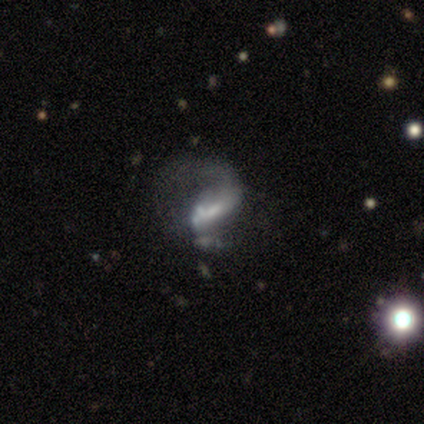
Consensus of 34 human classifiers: Smooth or featured?
  - featured or disk: 71% *
  - smooth: 18%
  - star or artifact: 12%
Edge-on disk?
  - no: 100% *
  - yes: 0%
Bar?
  - weak: 54% *
  - no: 25%
  - strong: 21%
Spiral arms?
  - yes: 67% *
  - no: 33%
Spiral winding?
  - loose: 50% *
  - medium: 38%
  - tight: 12%
Spiral arm count?
  - 1: 62% *
  - 2: 31%
  - can't tell: 6%
  - 3: 0%
  - 4: 0%
  - more than 4: 0%
Bulge size?
  - moderate: 33% *
  - small: 29%
  - none: 29%
  - dominant: 4%
  - large: 4%
Merging?
  - major disturbance: 70% *
  - none: 17%
  - minor disturbance: 7%
  - merger: 7%